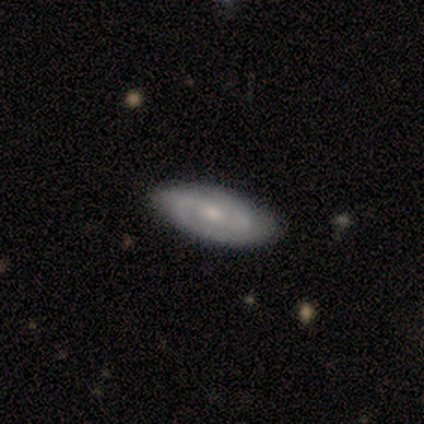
Q: Smooth or featured?
A: featured or disk (56%); runner-up: smooth (44%)
Q: Edge-on disk?
A: no (60%); runner-up: yes (40%)
Q: Bar?
A: no (67%); runner-up: strong (33%)
Q: Spiral arms?
A: no (67%); runner-up: yes (33%)
Q: Bulge size?
A: small (67%); runner-up: dominant (33%)
Q: Merging?
A: none (89%); runner-up: minor disturbance (11%)